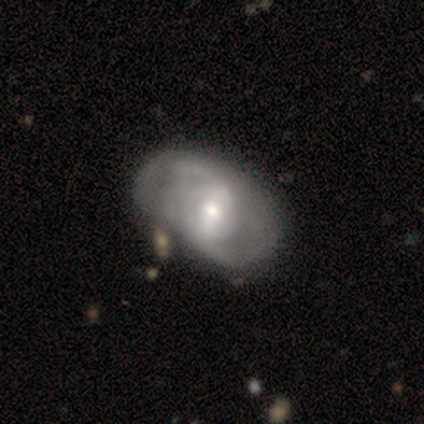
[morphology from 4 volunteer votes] smooth-or-featured: featured or disk: 100% | smooth: 0% | star or artifact: 0%
  disk-edge-on: no: 100% | yes: 0%
    bar: weak: 50% (tied) | no: 50% (tied) | strong: 0%
    has-spiral-arms: yes: 50% (tied) | no: 50% (tied)
      spiral-winding: tight: 50% (tied) | loose: 50% (tied) | medium: 0%
      spiral-arm-count: 2: 100% | 1: 0% | 3: 0% | 4: 0% | more than 4: 0% | can't tell: 0%
    bulge-size: small: 75% | moderate: 25% | dominant: 0% | large: 0% | none: 0%
  merging: none: 50% | minor disturbance: 25% | major disturbance: 25% | merger: 0%